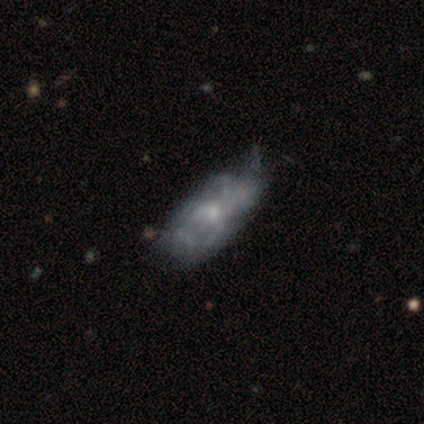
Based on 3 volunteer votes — smooth_or_featured: smooth (p=1.00)
how_rounded: in between (p=1.00)
merging: minor disturbance (p=0.67) [alt: major disturbance p=0.33]